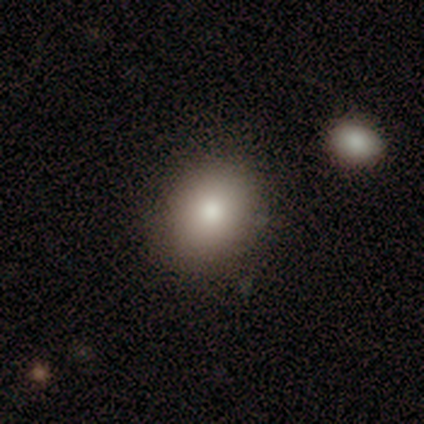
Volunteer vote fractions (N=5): Smooth or featured: smooth — 60% (featured or disk — 40%)
How rounded: in between — 67% (round — 33%)
Merging: none — 80% (merger — 20%)